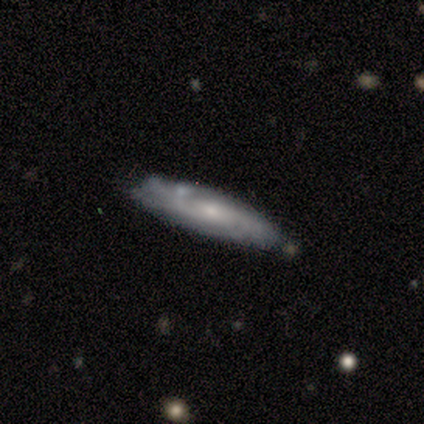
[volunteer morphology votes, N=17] A featured or disk galaxy (71%) with no bar (67%), tight (67%) spiral arms (100%) and a small central bulge (78%). Merging: none (53%).